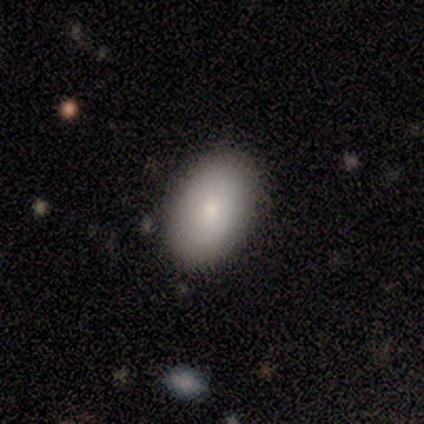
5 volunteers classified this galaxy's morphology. Smooth or featured? smooth (80%)
How rounded? in between (100%)
Merging? none (80%)